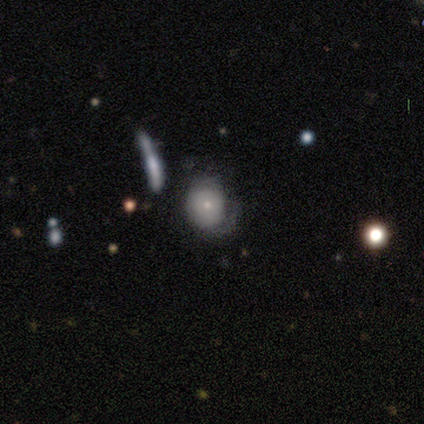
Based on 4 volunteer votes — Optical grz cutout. It shows a smooth galaxy with no disk features (75%) that is round (67%). Merging: none (50%).